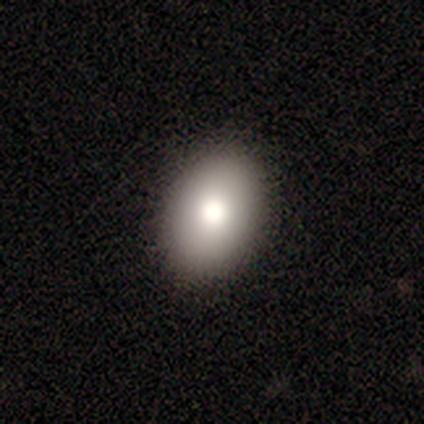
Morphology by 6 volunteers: Smooth or featured: smooth — 83% (featured or disk — 17%)
How rounded: in between — 80% (round — 20%)
Merging: none — 83% (minor disturbance — 17%)